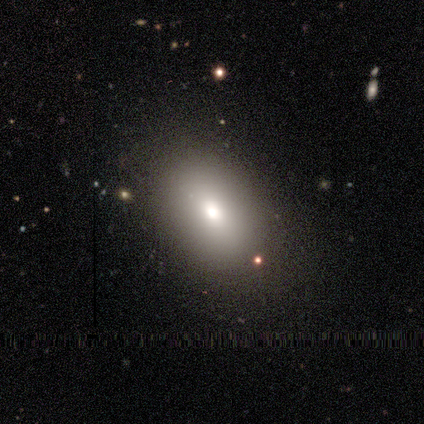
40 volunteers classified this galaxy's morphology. This appears to be a smooth galaxy with no disk features (90%) that is in between round and cigar-shaped (92%). Merging: none (82%).